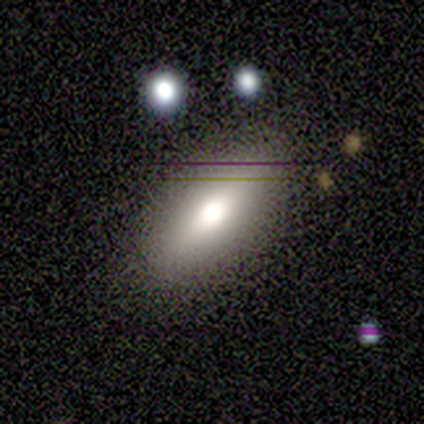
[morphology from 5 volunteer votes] Smooth or featured: smooth — 80% (featured or disk — 20%)
How rounded: in between — 100%
Merging: none — 100%